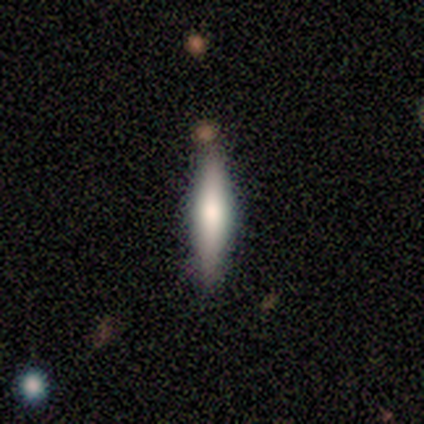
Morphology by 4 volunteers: Smooth or featured?
  - smooth: 75% *
  - featured or disk: 25%
  - star or artifact: 0%
How rounded?
  - cigar-shaped: 67% *
  - in between: 33%
  - round: 0%
Merging?
  - none: 75% *
  - minor disturbance: 25%
  - major disturbance: 0%
  - merger: 0%